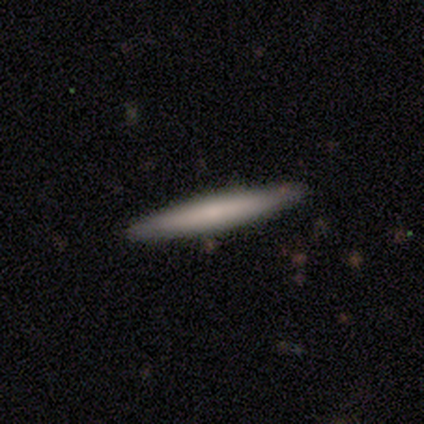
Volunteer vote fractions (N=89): Smooth or featured? smooth (66%)
How rounded? cigar-shaped (95%)
Merging? none (88%)